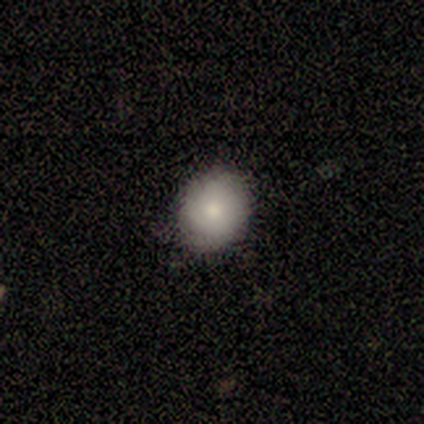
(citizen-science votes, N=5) Volunteers were most divided on "how rounded": round: 75%, in between: 25%, cigar-shaped: 0%. More confident: merging — none (100%); smooth or featured — smooth (80%).